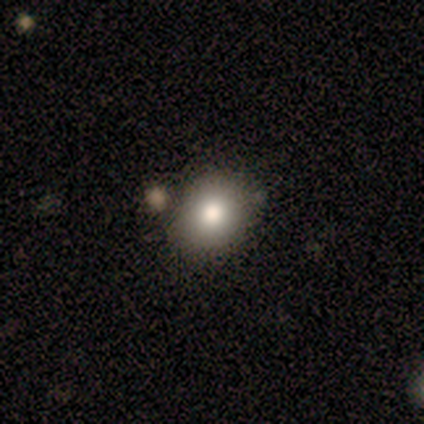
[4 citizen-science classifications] Smooth or featured: smooth — 100%
How rounded: round — 75% (in between — 25%)
Merging: none — 100%